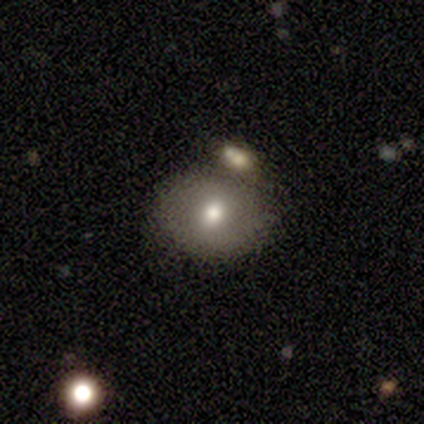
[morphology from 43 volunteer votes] Smooth or featured? 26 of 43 (60%) said smooth. How rounded? 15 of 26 (58%) said round. Merging? 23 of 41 (56%) said none.